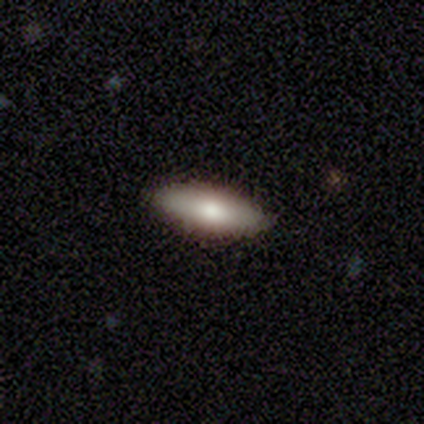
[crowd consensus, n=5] A smooth galaxy with no disk features (60%) that is in between round and cigar-shaped (67%).

Vote fractions:
- Smooth or featured? smooth: 60% / featured or disk: 40% / star or artifact: 0%
- How rounded? in between: 67% / cigar-shaped: 33% / round: 0%
- Merging? none: 100% / minor disturbance: 0% / major disturbance: 0% / merger: 0%